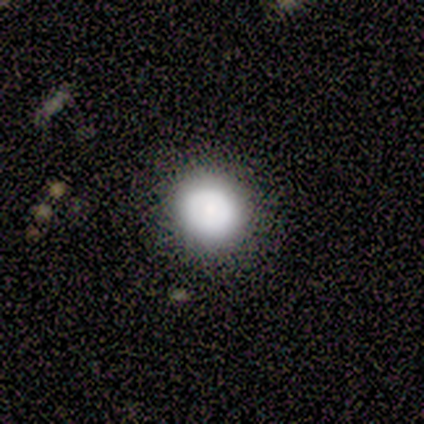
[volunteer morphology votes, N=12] smooth 92%, featured or disk 8%, star or artifact 0%. Down the decision tree: how rounded — round (82%); merging — none (92%).